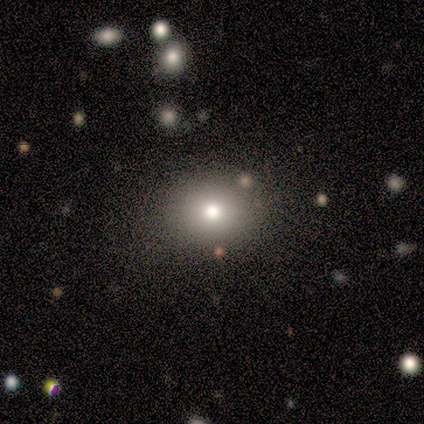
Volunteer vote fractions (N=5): Smooth or featured: smooth — 100%
How rounded: round — 60% (in between — 40%)
Merging: none — 60% (minor disturbance — 40%)